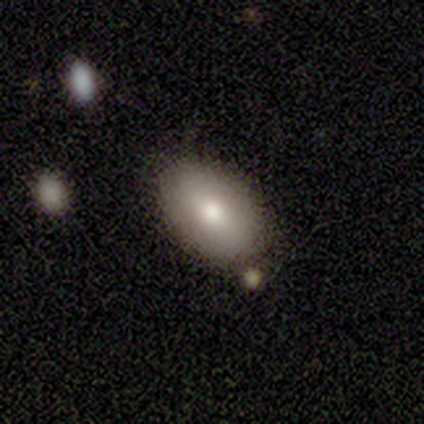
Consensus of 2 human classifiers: Volunteers were most divided on "smooth or featured" (2-way tie): smooth: 50%, featured or disk: 50%, star or artifact: 0%. More confident: how rounded — in between (100%); merging — none (100%).